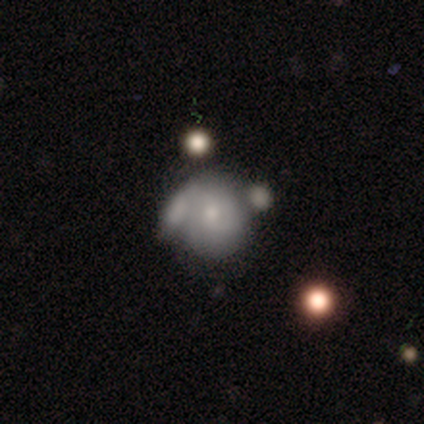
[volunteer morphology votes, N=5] Smooth or featured: featured or disk — 80% (smooth — 20%)
Edge-on disk: no — 100%
Bar: no — 100%
Spiral arms: no — 75% (yes — 25%)
Bulge size: moderate — 50% (large — 25%)
Merging: merger — 80% (minor disturbance — 20%)